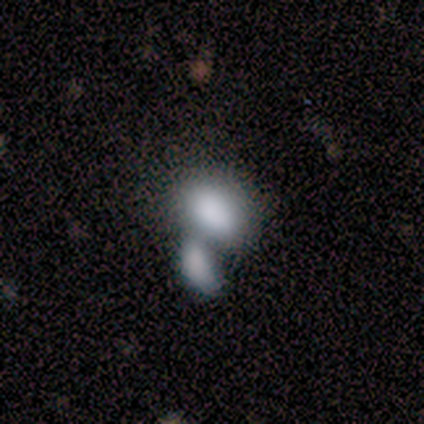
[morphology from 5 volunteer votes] Smooth or featured? 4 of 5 (80%) said smooth. How rounded? 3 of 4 (75%) said in between. Merging? 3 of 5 (60%) said merger.